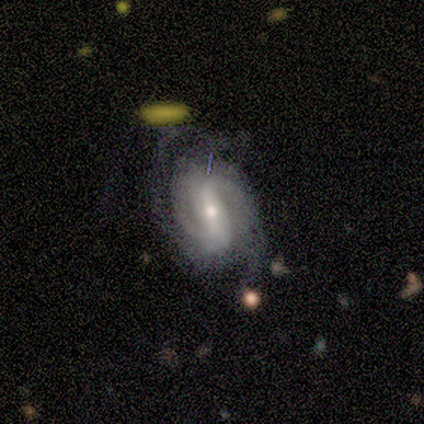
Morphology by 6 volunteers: Q: Smooth or featured?
A: featured or disk (67%); runner-up: smooth (33%)
Q: Edge-on disk?
A: no (100%)
Q: Bar?
A: weak (100%)
Q: Spiral arms?
A: yes (100%)
Q: Spiral winding?
A: medium (50%); runner-up: tight (25%)
Q: Spiral arm count?
A: 2 (50%); runner-up: 3 (25%)
Q: Bulge size?
A: moderate (100%)
Q: Merging?
A: none (50%); runner-up: minor disturbance (17%)